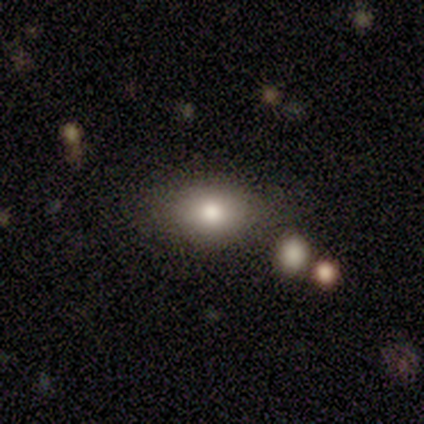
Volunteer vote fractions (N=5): A smooth galaxy with no disk features (80%) that is in between round and cigar-shaped (100%). Merging: none (40%, tied with minor disturbance).